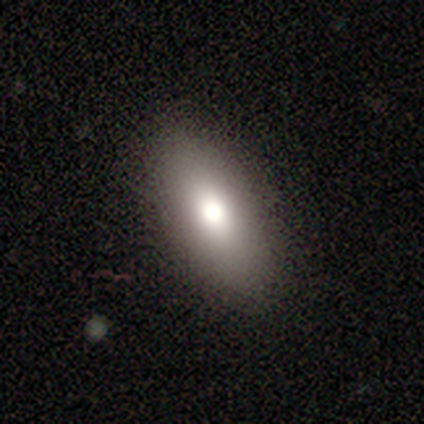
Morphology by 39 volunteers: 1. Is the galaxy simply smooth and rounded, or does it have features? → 77% smooth, 21% featured or disk, 3% star or artifact.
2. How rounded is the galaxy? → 83% in between, 13% cigar-shaped, 3% round.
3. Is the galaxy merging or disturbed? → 53% none, 8% minor disturbance, 5% merger, 0% major disturbance.